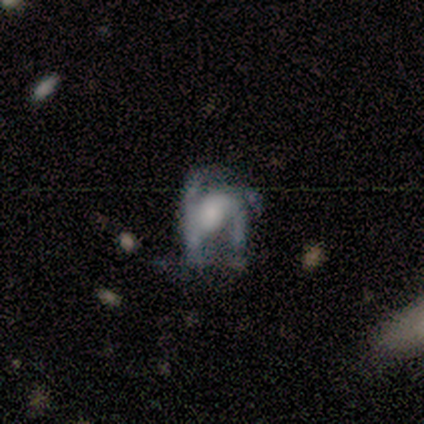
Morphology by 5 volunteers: smooth-or-featured: smooth: 40% (tied) | featured or disk: 40% (tied) | star or artifact: 20%
  how-rounded: in between: 100% | round: 0% | cigar-shaped: 0%
  merging: major disturbance: 50% | none: 25% | minor disturbance: 25% | merger: 0%